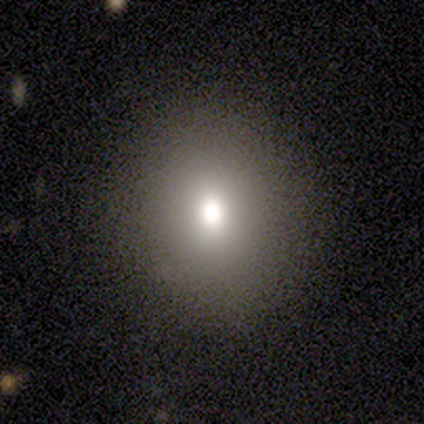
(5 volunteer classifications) Overall: smooth (100%). How rounded: round (60%; in between 20%). Merging: none (80%).